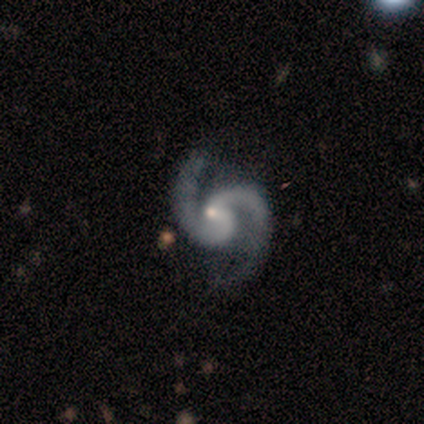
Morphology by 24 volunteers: A featured or disk galaxy (100%) with no bar (75%), 2 (96%) medium (58%) spiral arms (100%) and a small central bulge (62%).

Vote fractions:
- Smooth or featured? featured or disk: 100% / smooth: 0% / star or artifact: 0%
- Edge-on disk? no: 100% / yes: 0%
- Bar? no: 75% / weak: 17% / strong: 8%
- Spiral arms? yes: 100% / no: 0%
- Spiral winding? medium: 58% / loose: 38% / tight: 4%
- Spiral arm count? 2: 96% / 3: 4% / 1: 0% / 4: 0% / more than 4: 0% / can't tell: 0%
- Bulge size? small: 62% / moderate: 33% / none: 4% / dominant: 0% / large: 0%
- Merging? none: 71% / minor disturbance: 21% / major disturbance: 8% / merger: 0%